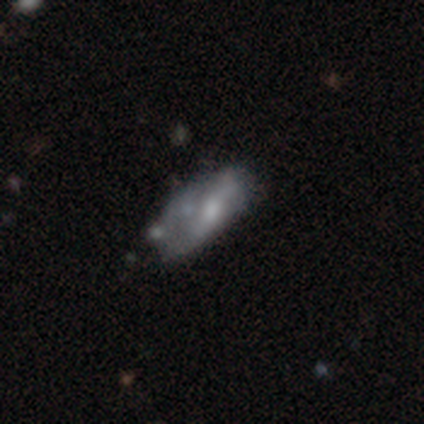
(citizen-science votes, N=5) Smooth or featured? 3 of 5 (60%) said featured or disk. Edge-on disk? 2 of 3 (67%) said yes. Edge-on bulge? 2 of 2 (100%) said rounded. Merging? 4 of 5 (80%) said none.